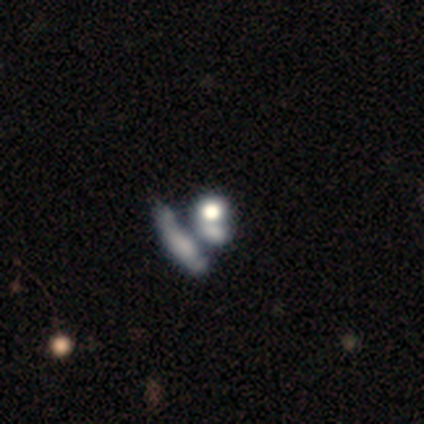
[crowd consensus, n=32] smooth_or_featured: smooth (p=0.47) [alt: star or artifact p=0.28]
how_rounded: in between (p=0.53) [alt: round p=0.47]
merging: merger (p=0.61) [alt: none p=0.22]